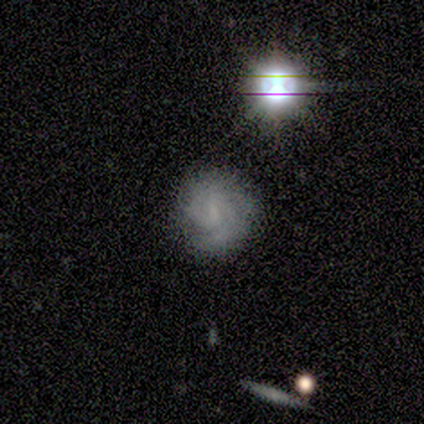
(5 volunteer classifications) smooth_or_featured: featured or disk (p=1.00)
disk_edge_on: no (p=1.00)
bar: weak (p=0.60) [alt: no p=0.40]
has_spiral_arms: yes (p=1.00)
spiral_winding: tight (p=0.60) [alt: medium p=0.40]
spiral_arm_count: 2 (p=0.60) [alt: 3 p=0.20]
bulge_size: none (p=0.60) [alt: small p=0.40]
merging: none (p=1.00)